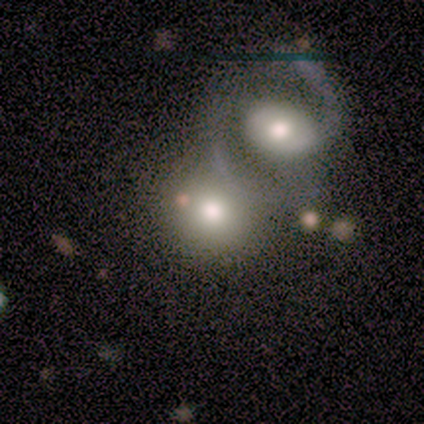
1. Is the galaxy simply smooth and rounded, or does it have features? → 57% smooth, 29% featured or disk, 14% star or artifact.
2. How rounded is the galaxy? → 75% round, 25% in between, 0% cigar-shaped.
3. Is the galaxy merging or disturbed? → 50% none, 33% minor disturbance, 17% merger, 0% major disturbance.